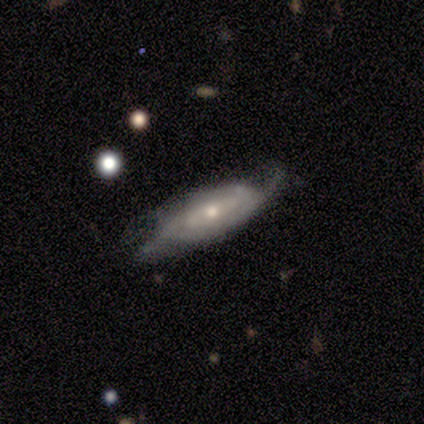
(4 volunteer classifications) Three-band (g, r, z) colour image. It shows a featured or disk galaxy (100%) with a weak bar (50%, tied with no), tight (33%, tied with medium and loose) spiral arms (75%) and a moderate central bulge (75%). Merging: none (75%).